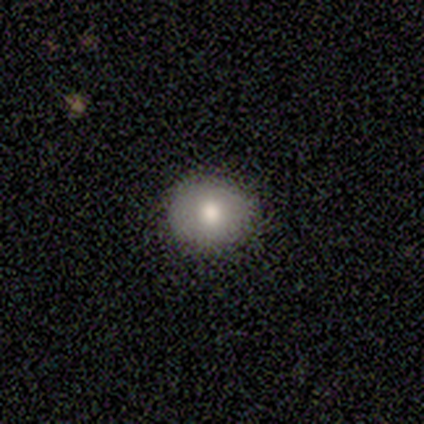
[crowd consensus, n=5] Smooth or featured? smooth (80%)
How rounded? round (100%)
Merging? none (75%)